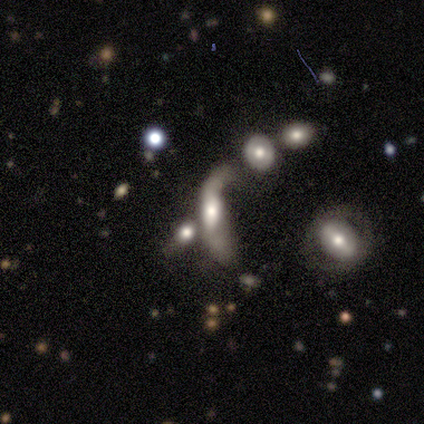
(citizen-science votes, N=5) Overall: featured or disk (60%; smooth 20%). Edge-on disk: no (67%; yes 33%). Bar: no (100%). Spiral arms: no (100%). Bulge size: large (50%, tied with moderate). Merging: major disturbance (50%, tied with merger).